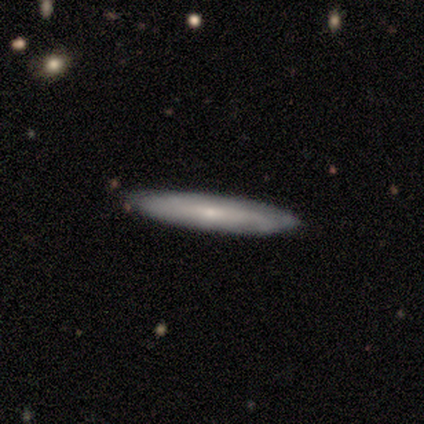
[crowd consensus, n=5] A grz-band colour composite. It shows a featured or disk galaxy (60%) viewed edge-on (100%) with no central bulge (67%). Merging: none (100%).